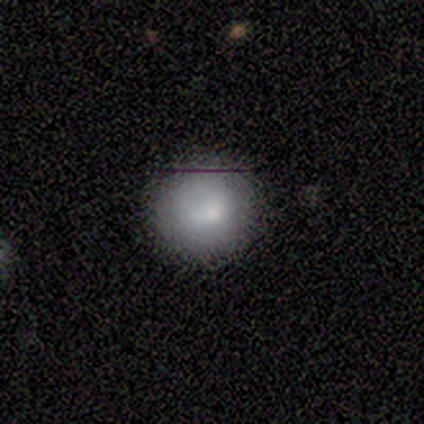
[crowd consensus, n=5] Smooth or featured? 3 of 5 (60%) said smooth. How rounded? 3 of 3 (100%) said round. Merging? 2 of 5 (40%, tied with minor disturbance) said none.